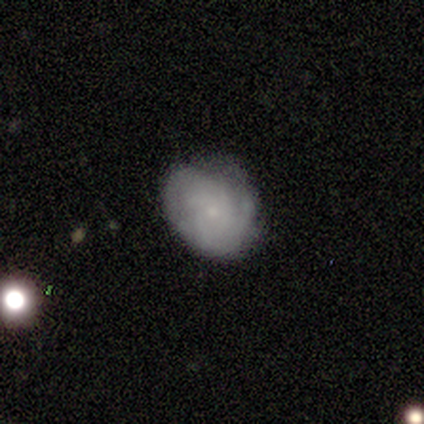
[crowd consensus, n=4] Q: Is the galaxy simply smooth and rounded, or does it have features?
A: smooth — 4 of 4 (100%).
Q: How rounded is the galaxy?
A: in between — 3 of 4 (75%).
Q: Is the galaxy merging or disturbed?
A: none — 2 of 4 (50%, tied with minor disturbance).